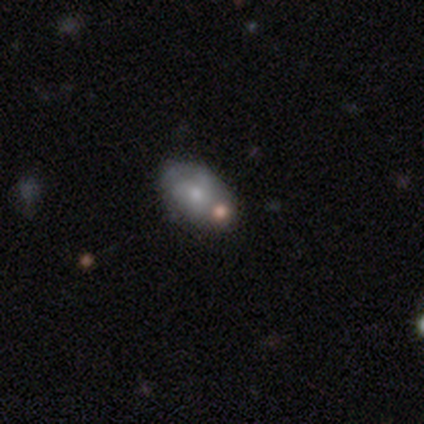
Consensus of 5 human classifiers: Smooth or featured: smooth — 40% (tied with featured or disk — 40%)
How rounded: in between — 100%
Merging: minor disturbance — 50% (none — 25%)